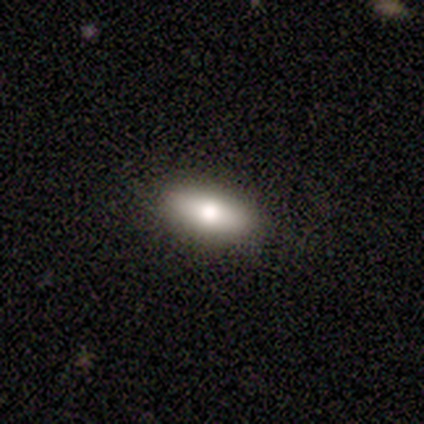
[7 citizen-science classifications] A smooth galaxy with no disk features (86%) that is in between round and cigar-shaped (100%).

Vote fractions:
- Smooth or featured? smooth: 86% / featured or disk: 14% / star or artifact: 0%
- How rounded? in between: 100% / round: 0% / cigar-shaped: 0%
- Merging? none: 100% / minor disturbance: 0% / major disturbance: 0% / merger: 0%